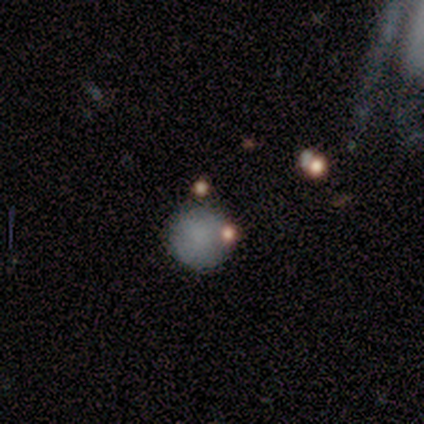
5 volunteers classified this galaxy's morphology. Smooth or featured: smooth — 80% (featured or disk — 20%)
How rounded: round — 100%
Merging: none — 80% (minor disturbance — 20%)